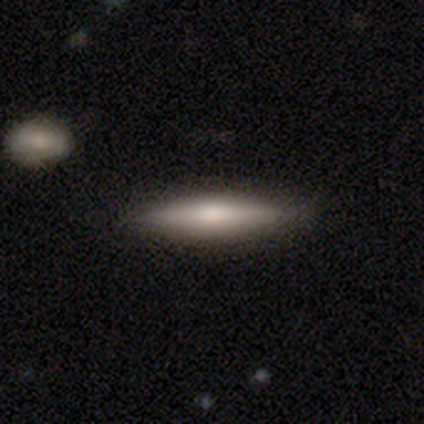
This is likely a smooth galaxy (67%). How rounded: clearly cigar-shaped (100%). Merging: clearly none (89%).